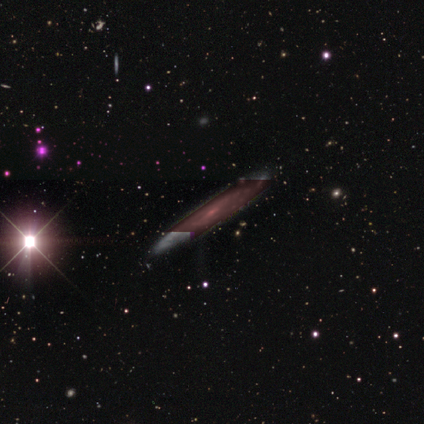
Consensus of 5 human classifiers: Q: Smooth or featured?
A: featured or disk (60%); runner-up: smooth (20%)
Q: Edge-on disk?
A: no (67%); runner-up: yes (33%)
Q: Bar?
A: weak (100%)
Q: Spiral arms?
A: yes (100%)
Q: Spiral winding?
A: tight (100%)
Q: Spiral arm count?
A: can't tell (100%)
Q: Bulge size?
A: small (100%)
Q: Merging?
A: none (75%); runner-up: minor disturbance (25%)